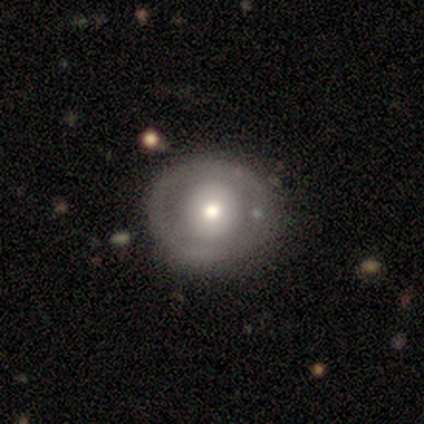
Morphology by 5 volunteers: This is likely a featured or disk galaxy (60%). It is clearly not viewed edge-on (100%). Bar: clearly no (100%). Spiral arm pattern: clearly no (100%). Central bulge: likely moderate (67%). Merging: clearly none (100%).